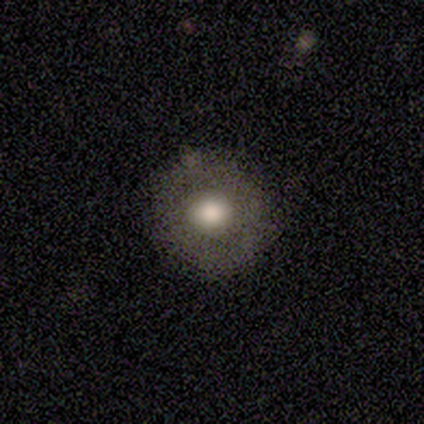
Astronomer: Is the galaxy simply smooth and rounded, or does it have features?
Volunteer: smooth — 67%.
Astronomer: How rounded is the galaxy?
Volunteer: round — 92%.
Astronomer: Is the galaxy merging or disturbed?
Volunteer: none — 67%.